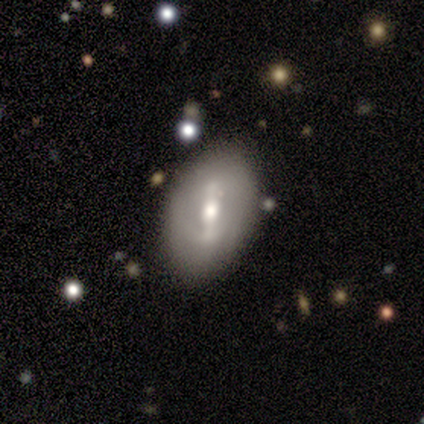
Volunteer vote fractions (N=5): Smooth or featured?
  - featured or disk: 80% *
  - smooth: 20%
  - star or artifact: 0%
Edge-on disk?
  - no: 100% *
  - yes: 0%
Bar?
  - strong: 75% *
  - weak: 25%
  - no: 0%
Spiral arms?
  - yes: 75% *
  - no: 25%
Spiral winding?
  - tight: 33% * (tied)
  - medium: 33% * (tied)
  - loose: 33% * (tied)
Spiral arm count?
  - 2: 67% *
  - can't tell: 33%
  - 1: 0%
  - 3: 0%
  - 4: 0%
  - more than 4: 0%
Bulge size?
  - moderate: 75% *
  - large: 25%
  - dominant: 0%
  - small: 0%
  - none: 0%
Merging?
  - none: 60% *
  - minor disturbance: 40%
  - major disturbance: 0%
  - merger: 0%